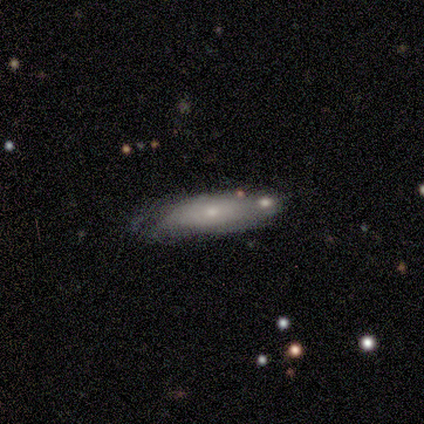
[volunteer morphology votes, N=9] smooth-or-featured: featured or disk: 67% | smooth: 33% | star or artifact: 0%
  disk-edge-on: no: 83% | yes: 17%
    bar: no: 100% | strong: 0% | weak: 0%
    has-spiral-arms: no: 60% | yes: 40%
    bulge-size: small: 80% | moderate: 20% | dominant: 0% | large: 0% | none: 0%
  merging: none: 56% | minor disturbance: 33% | merger: 11% | major disturbance: 0%